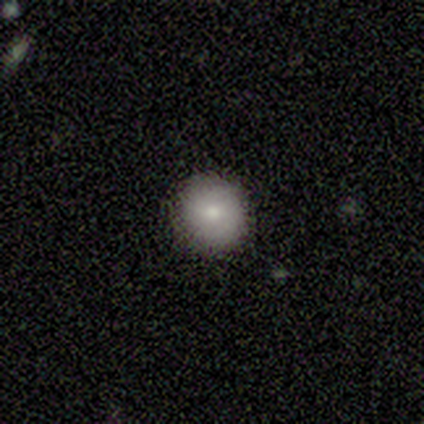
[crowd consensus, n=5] A smooth galaxy with no disk features (80%) that is round (75%). Merging: none (80%).